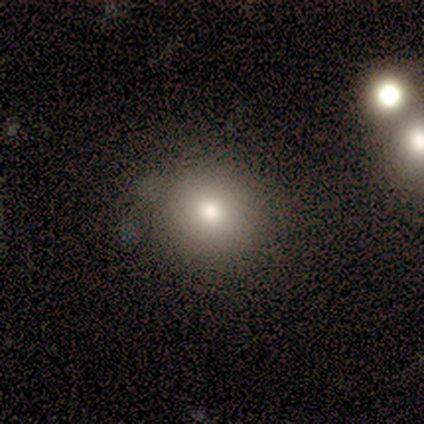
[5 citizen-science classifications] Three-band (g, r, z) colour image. It shows a smooth galaxy with no disk features (60%) that is round (67%). Merging: none (100%).